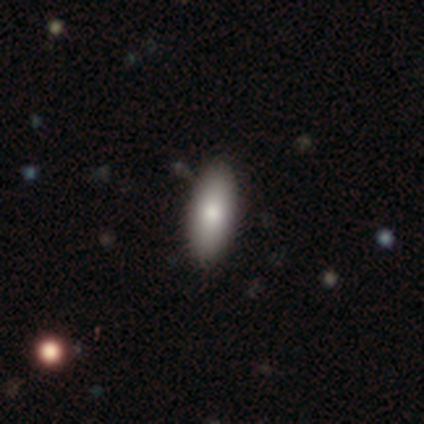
A smooth galaxy with no disk features (80%) that is in between round and cigar-shaped (75%). Merging: none (80%).